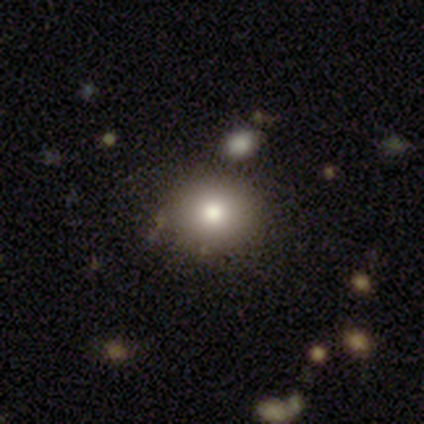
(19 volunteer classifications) Volunteers were most divided on "how rounded": round: 69%, in between: 31%, cigar-shaped: 0%. More confident: merging — none (88%); smooth or featured — smooth (84%).